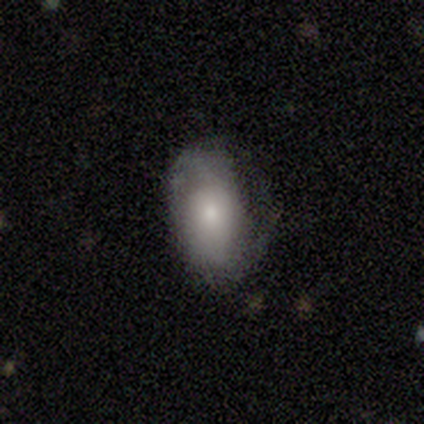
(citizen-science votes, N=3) This is likely a smooth galaxy (67%). How rounded: clearly in between (100%). Merging: marginally none (33%, tied with minor disturbance and major disturbance).